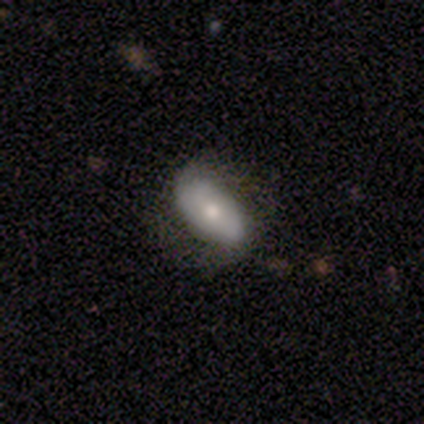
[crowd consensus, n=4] smooth 50% (tied), featured or disk 50% (tied), star or artifact 0%. Down the decision tree: how rounded — in between (100%); merging — none (50%, tied with minor disturbance).